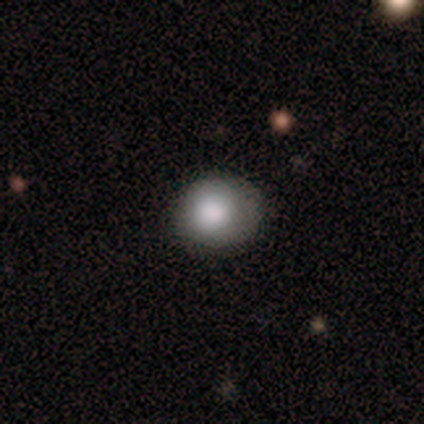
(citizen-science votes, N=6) This is clearly a smooth galaxy (100%). How rounded: likely round (67%). Merging: clearly none (83%).